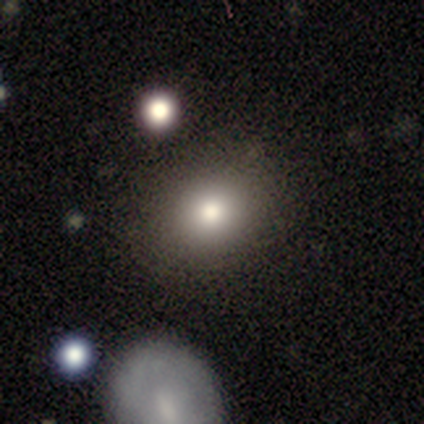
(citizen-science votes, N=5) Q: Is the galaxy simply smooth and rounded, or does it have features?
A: smooth — 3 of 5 (60%).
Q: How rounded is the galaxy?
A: round — 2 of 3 (67%).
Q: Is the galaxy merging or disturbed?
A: none — 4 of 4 (100%).